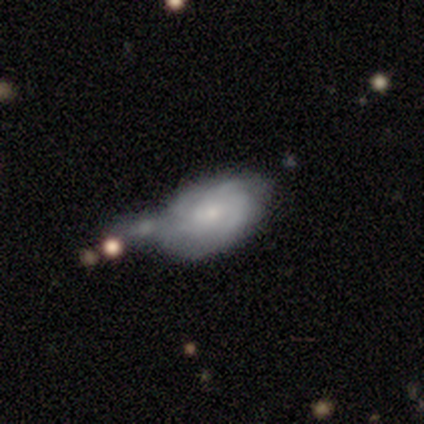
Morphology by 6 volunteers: This appears to be a smooth galaxy with no disk features (67%) that is in between round and cigar-shaped (100%). Merging: none (33%, tied with minor disturbance and merger).